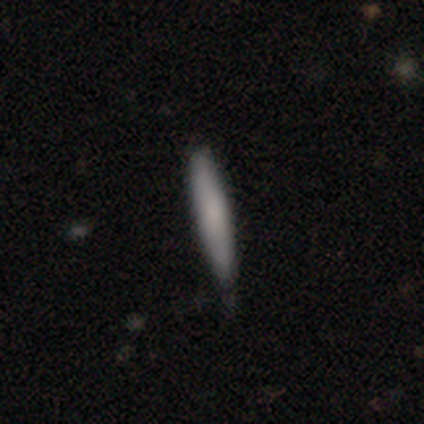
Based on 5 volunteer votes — This appears to be a smooth galaxy with no disk features (60%) that is cigar-shaped (100%). Merging: none (100%).